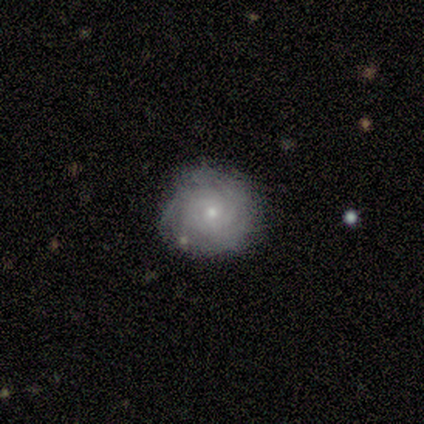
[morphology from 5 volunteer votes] Smooth or featured?
  - featured or disk: 60% *
  - smooth: 40%
  - star or artifact: 0%
Edge-on disk?
  - no: 100% *
  - yes: 0%
Bar?
  - no: 100% *
  - strong: 0%
  - weak: 0%
Spiral arms?
  - yes: 100% *
  - no: 0%
Spiral winding?
  - tight: 100% *
  - medium: 0%
  - loose: 0%
Spiral arm count?
  - can't tell: 67% *
  - 4: 33%
  - 1: 0%
  - 2: 0%
  - 3: 0%
  - more than 4: 0%
Bulge size?
  - small: 100% *
  - dominant: 0%
  - large: 0%
  - moderate: 0%
  - none: 0%
Merging?
  - none: 100% *
  - minor disturbance: 0%
  - major disturbance: 0%
  - merger: 0%